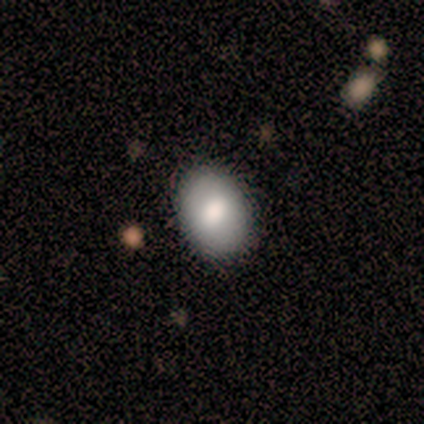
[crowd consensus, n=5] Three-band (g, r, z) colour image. It shows a smooth galaxy with no disk features (80%) that is round (50%, tied with in between). Merging: none (80%).